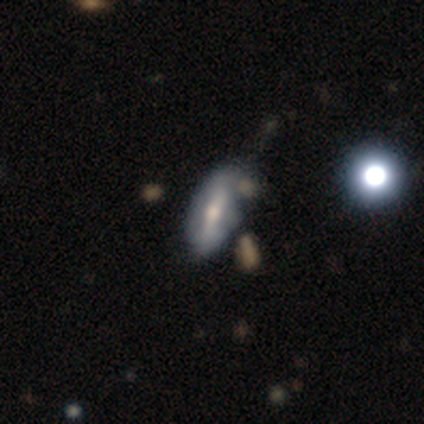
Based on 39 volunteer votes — Smooth or featured?
  - featured or disk: 56% *
  - smooth: 41%
  - star or artifact: 3%
Edge-on disk?
  - no: 77% *
  - yes: 23%
Bar?
  - strong: 59% *
  - weak: 24%
  - no: 18%
Spiral arms?
  - no: 71% *
  - yes: 29%
Bulge size?
  - moderate: 76% *
  - small: 24%
  - dominant: 0%
  - large: 0%
  - none: 0%
Merging?
  - minor disturbance: 34% *
  - none: 26%
  - major disturbance: 8%
  - merger: 8%